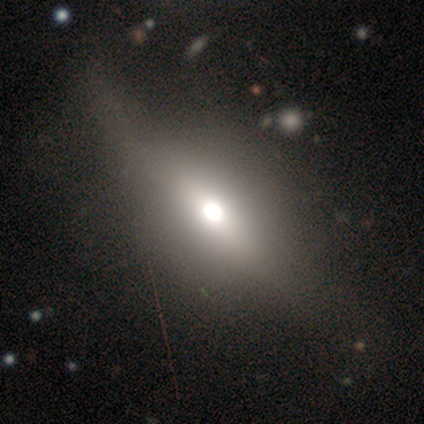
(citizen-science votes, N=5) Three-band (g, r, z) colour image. It shows a featured or disk galaxy (80%) viewed edge-on (75%) with a rounded central bulge (100%). Merging: none (100%).